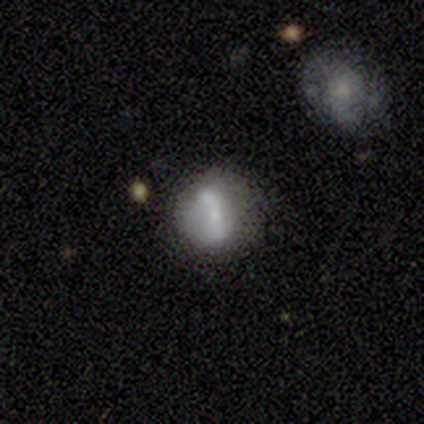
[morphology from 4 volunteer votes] Q: Smooth or featured?
A: featured or disk (75%); runner-up: smooth (25%)
Q: Edge-on disk?
A: no (100%)
Q: Bar?
A: no (67%); runner-up: weak (33%)
Q: Spiral arms?
A: yes (67%); runner-up: no (33%)
Q: Spiral winding?
A: loose (100%)
Q: Spiral arm count?
A: 1 (50%); tied with: 2 (50%)
Q: Bulge size?
A: moderate (67%); runner-up: small (33%)
Q: Merging?
A: none (50%); tied with: minor disturbance (50%)